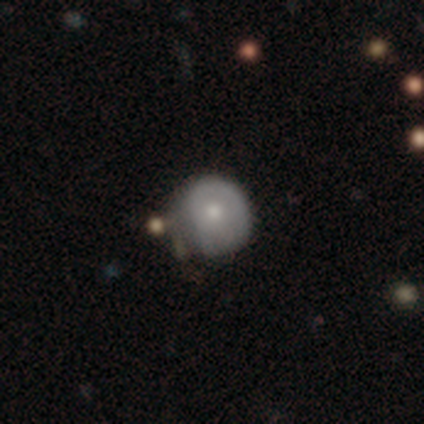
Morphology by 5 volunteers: Smooth or featured? 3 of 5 (60%) said smooth. How rounded? 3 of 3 (100%) said round. Merging? 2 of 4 (50%, tied with minor disturbance) said none.